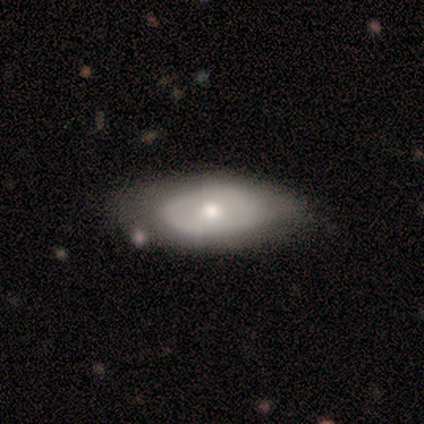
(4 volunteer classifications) Smooth or featured? 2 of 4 (50%, tied with featured or disk) said smooth. How rounded? 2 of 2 (100%) said in between. Merging? 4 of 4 (100%) said none.